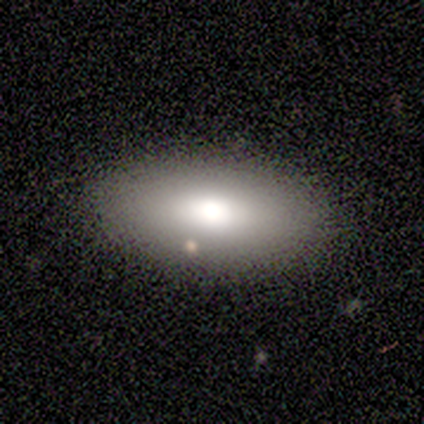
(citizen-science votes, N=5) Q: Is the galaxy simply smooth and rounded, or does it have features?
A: smooth — 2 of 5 (40%, tied with featured or disk).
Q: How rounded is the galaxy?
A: in between — 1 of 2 (50%, tied with cigar-shaped).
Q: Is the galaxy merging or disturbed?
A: none — 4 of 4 (100%).